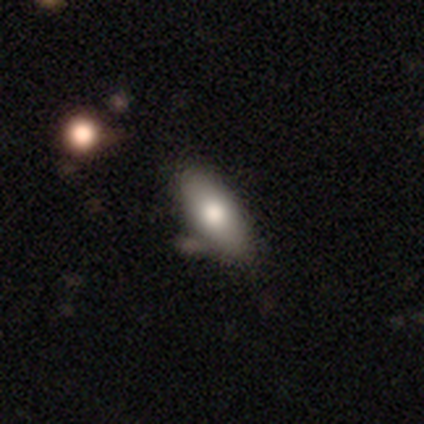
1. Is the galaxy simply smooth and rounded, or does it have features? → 60% featured or disk, 40% smooth, 0% star or artifact.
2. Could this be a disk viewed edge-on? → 67% no, 33% yes.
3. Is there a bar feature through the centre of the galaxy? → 100% no, 0% strong, 0% weak.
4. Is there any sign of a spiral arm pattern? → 100% no, 0% yes.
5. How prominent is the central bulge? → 100% moderate, 0% dominant, 0% large, 0% small, 0% none.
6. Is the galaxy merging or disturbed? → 80% none, 20% minor disturbance, 0% major disturbance, 0% merger.